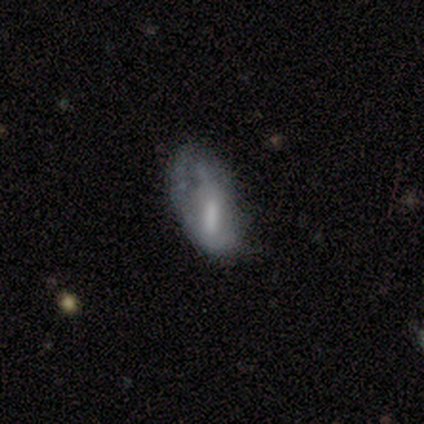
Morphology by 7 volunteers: Q: Smooth or featured?
A: smooth (57%); runner-up: featured or disk (29%)
Q: How rounded?
A: in between (100%)
Q: Merging?
A: none (33%); tied with: minor disturbance (33%); major disturbance (33%)